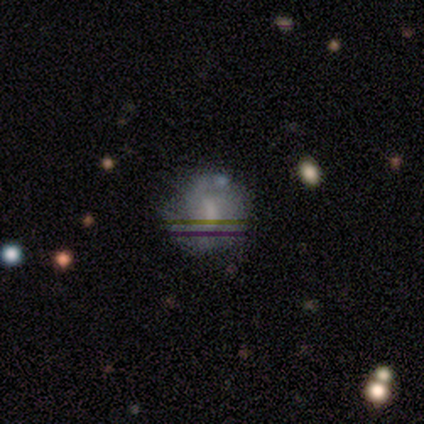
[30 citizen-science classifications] A featured or disk galaxy (43%) with a weak bar (69%), 2 (55%) medium (64%) spiral arms (85%) and a moderate central bulge (46%).

Vote fractions:
- Smooth or featured? featured or disk: 43% / smooth: 37% / star or artifact: 20%
- Edge-on disk? no: 100% / yes: 0%
- Bar? weak: 69% / no: 23% / strong: 8%
- Spiral arms? yes: 85% / no: 15%
- Spiral winding? medium: 64% / tight: 27% / loose: 9%
- Spiral arm count? 2: 55% / 3: 18% / can't tell: 18% / 1: 9% / 4: 0% / more than 4: 0%
- Bulge size? moderate: 46% / small: 23% / none: 23% / large: 8% / dominant: 0%
- Merging? none: 62% / minor disturbance: 25% / major disturbance: 8% / merger: 4%